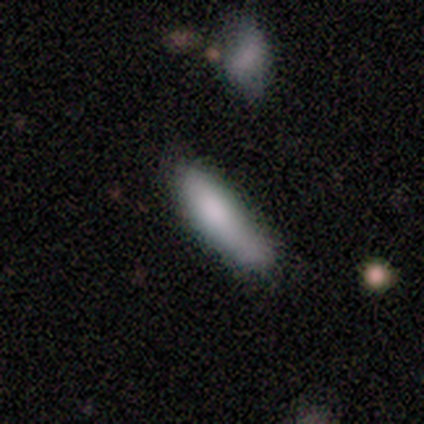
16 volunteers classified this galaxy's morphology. smooth-or-featured: smooth: 75% | featured or disk: 25% | star or artifact: 0%
  how-rounded: in between: 50% (tied) | cigar-shaped: 50% (tied) | round: 0%
  merging: none: 50% | minor disturbance: 25% | major disturbance: 12% | merger: 12%